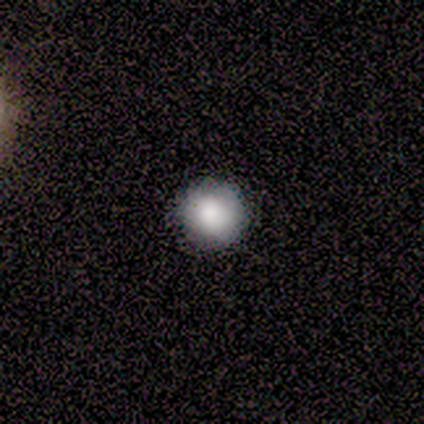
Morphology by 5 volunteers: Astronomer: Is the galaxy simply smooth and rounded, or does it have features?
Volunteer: smooth — 80%.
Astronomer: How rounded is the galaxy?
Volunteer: round — 100%.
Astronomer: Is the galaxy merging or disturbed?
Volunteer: none — 100%.